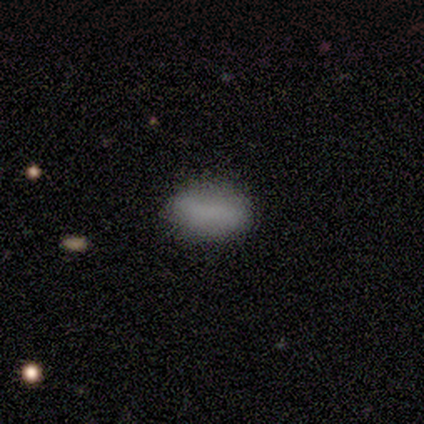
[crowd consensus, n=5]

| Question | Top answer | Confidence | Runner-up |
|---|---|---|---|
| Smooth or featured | smooth | 100% | — |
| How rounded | in between | 80% | cigar-shaped (20%) |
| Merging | none | 100% | — |